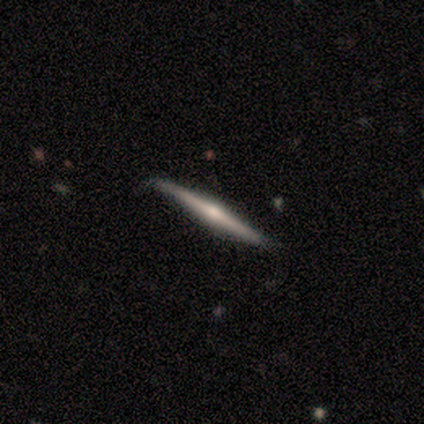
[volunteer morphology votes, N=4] smooth-or-featured: featured or disk: 75% | smooth: 25% | star or artifact: 0%
  disk-edge-on: yes: 100% | no: 0%
    edge-on-bulge: rounded: 100% | boxy: 0% | none: 0%
  merging: none: 100% | minor disturbance: 0% | major disturbance: 0% | merger: 0%